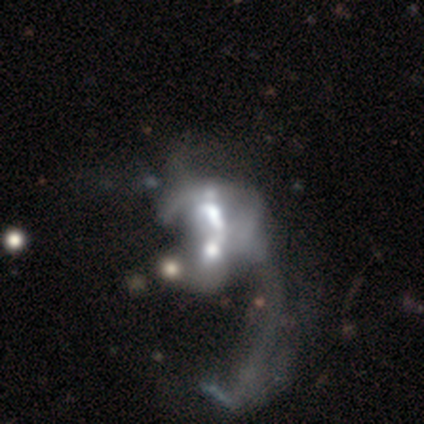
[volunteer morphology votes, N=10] featured or disk 90%, smooth 10%, star or artifact 0%. Down the decision tree: edge-on disk — no (100%); bar — no (56%); spiral arms — no (78%); bulge size — moderate (44%); merging — merger (70%).